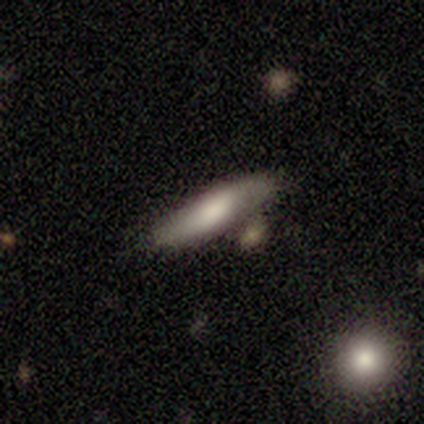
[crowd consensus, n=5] smooth-or-featured: smooth: 60% | featured or disk: 20% | star or artifact: 20%
  how-rounded: cigar-shaped: 67% | in between: 33% | round: 0%
  merging: none: 75% | minor disturbance: 25% | major disturbance: 0% | merger: 0%